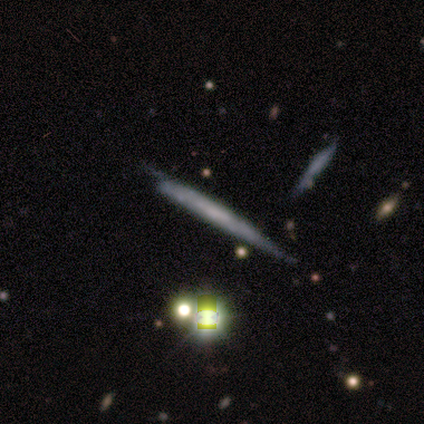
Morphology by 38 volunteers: smooth-or-featured: featured or disk: 68% | smooth: 16% | star or artifact: 16%
  disk-edge-on: yes: 81% | no: 19%
    edge-on-bulge: none: 90% | boxy: 10% | rounded: 0%
  merging: none: 50% | minor disturbance: 41% | merger: 6% | major disturbance: 3%